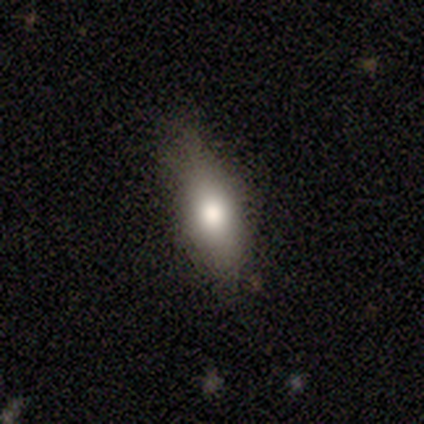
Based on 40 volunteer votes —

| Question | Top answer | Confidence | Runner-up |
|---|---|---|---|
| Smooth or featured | smooth | 75% | featured or disk (18%) |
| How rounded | in between | 67% | cigar-shaped (27%) |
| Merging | none | 57% | minor disturbance (32%) |